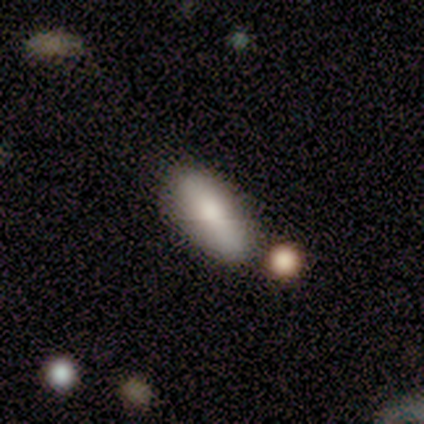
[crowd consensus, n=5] Volunteers were most divided on "how rounded": in between: 60%, cigar-shaped: 40%, round: 0%. More confident: smooth or featured — smooth (100%); merging — none (100%).